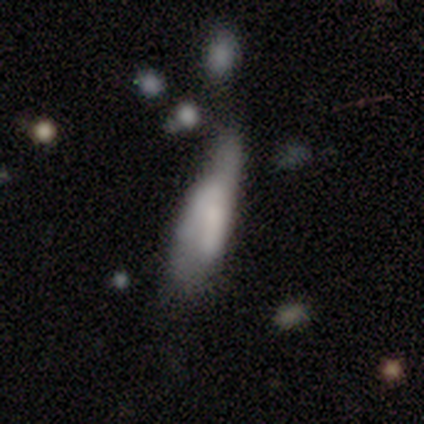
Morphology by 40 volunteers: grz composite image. It shows a smooth galaxy with no disk features (55%) that is in between round and cigar-shaped (55%). Merging: minor disturbance (34%, tied with major disturbance).